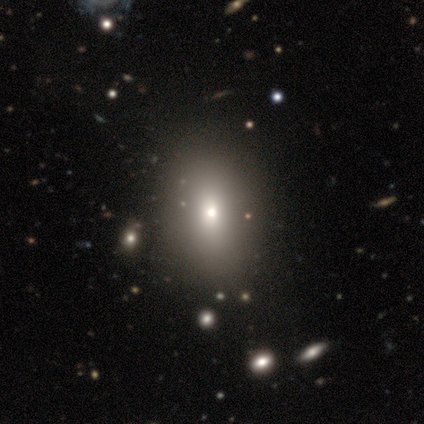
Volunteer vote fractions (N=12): This appears to be a smooth galaxy with no disk features (67%) that is in between round and cigar-shaped (75%). Merging: none (67%).